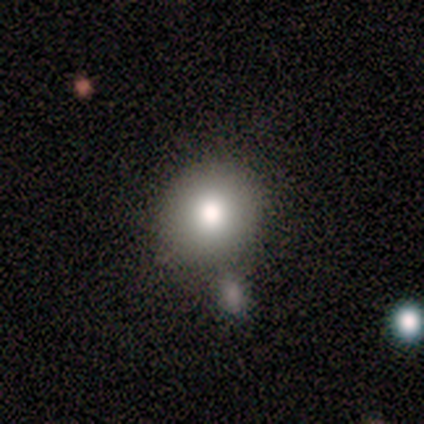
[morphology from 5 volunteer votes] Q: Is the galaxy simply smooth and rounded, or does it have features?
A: smooth — 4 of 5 (80%).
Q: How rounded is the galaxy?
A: round — 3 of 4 (75%).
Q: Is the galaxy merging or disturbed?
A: none — 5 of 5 (100%).